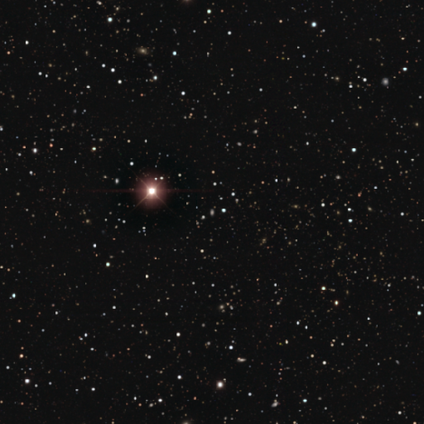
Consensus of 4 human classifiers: A star or artifact, not a galaxy (100%).

Vote fractions:
- Smooth or featured? star or artifact: 100% / smooth: 0% / featured or disk: 0%